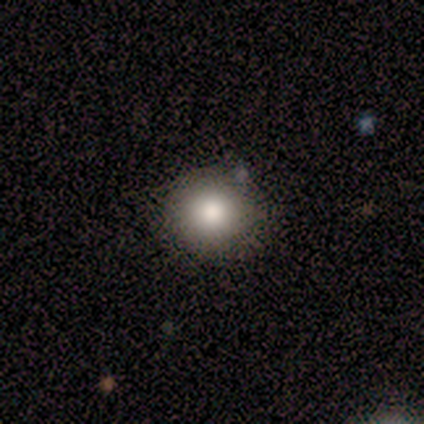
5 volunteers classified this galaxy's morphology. A smooth galaxy with no disk features (60%) that is round (100%). Merging: none (60%).